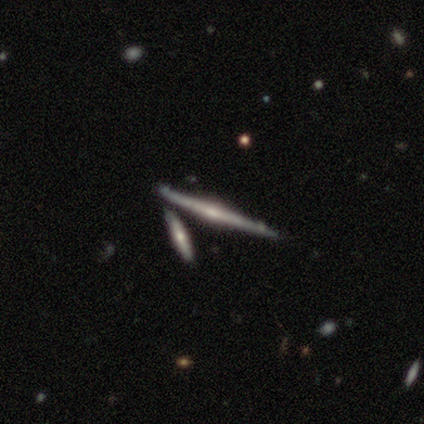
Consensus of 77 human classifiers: Overall: featured or disk (94%). Edge-on disk: yes (100%). Edge-on bulge: rounded (74%). Merging: none (35%; merger 32%).